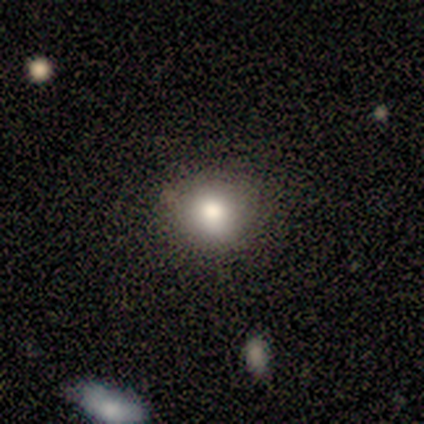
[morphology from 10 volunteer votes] smooth 100%, featured or disk 0%, star or artifact 0%. Down the decision tree: how rounded — round (80%); merging — none (80%).